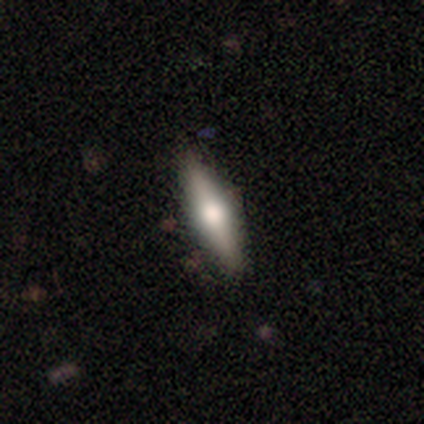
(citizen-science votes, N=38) featured or disk 50%, smooth 45%, star or artifact 5%. Down the decision tree: edge-on disk — yes (100%); edge-on bulge — rounded (95%); merging — none (94%).